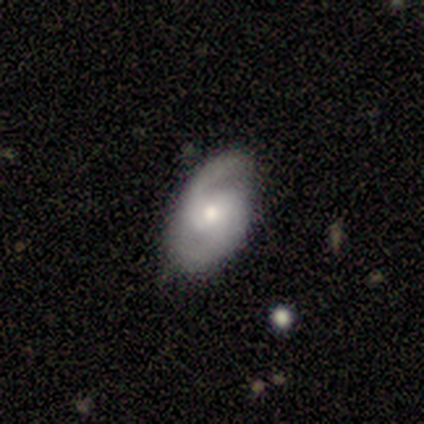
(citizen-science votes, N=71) smooth-or-featured: featured or disk: 83% | smooth: 11% | star or artifact: 6%
  disk-edge-on: no: 93% | yes: 7%
    bar: no: 55% | weak: 35% | strong: 11%
    has-spiral-arms: yes: 100% | no: 0%
      spiral-winding: medium: 62% | loose: 20% | tight: 18%
      spiral-arm-count: 2: 87% | can't tell: 7% | 3: 4% | 1: 2% | 4: 0% | more than 4: 0%
    bulge-size: moderate: 53% | small: 42% | large: 5% | dominant: 0% | none: 0%
  merging: none: 76% | minor disturbance: 22% | major disturbance: 1% | merger: 0%